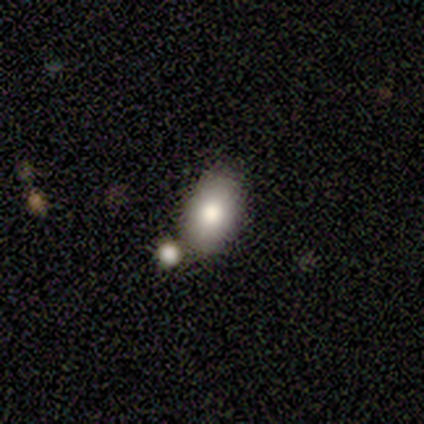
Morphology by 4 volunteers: Q: Smooth or featured?
A: smooth (100%)
Q: How rounded?
A: in between (75%); runner-up: round (25%)
Q: Merging?
A: none (50%); runner-up: minor disturbance (25%)